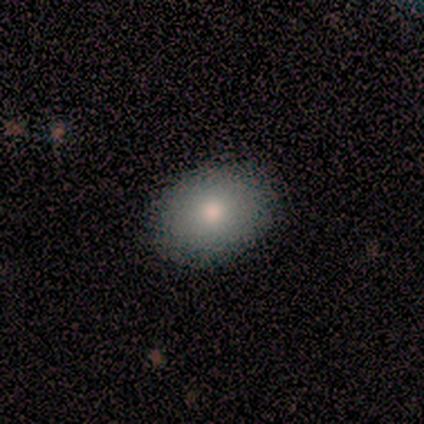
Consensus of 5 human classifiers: This appears to be a smooth galaxy with no disk features (100%) that is in between round and cigar-shaped (60%). Merging: none (100%).